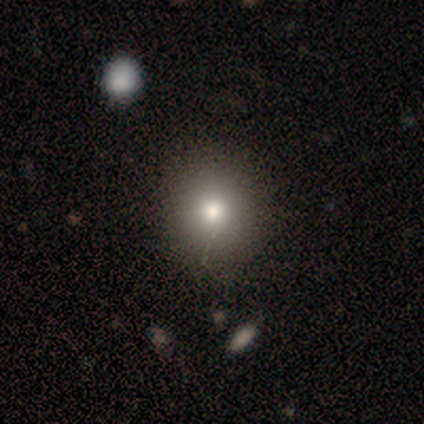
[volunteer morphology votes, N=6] smooth 83%, star or artifact 17%, featured or disk 0%. Down the decision tree: how rounded — round (60%); merging — none (80%).